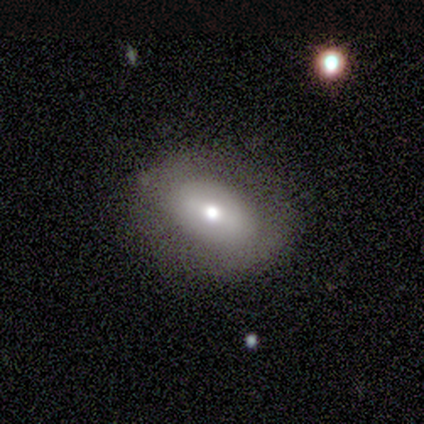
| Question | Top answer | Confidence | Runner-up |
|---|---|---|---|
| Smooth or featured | featured or disk | 75% | smooth (25%) |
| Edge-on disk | no | 100% | — |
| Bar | strong | 67% | no (33%) |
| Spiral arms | no | 100% | — |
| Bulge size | moderate | 33% | tied: small (33%), none (33%) |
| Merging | none | 100% | — |